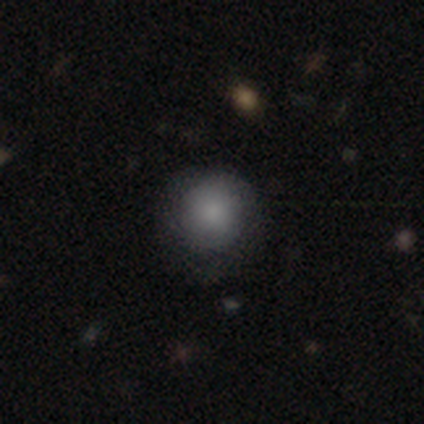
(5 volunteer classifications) smooth 100%, featured or disk 0%, star or artifact 0%. Down the decision tree: how rounded — round (60%); merging — none (60%).